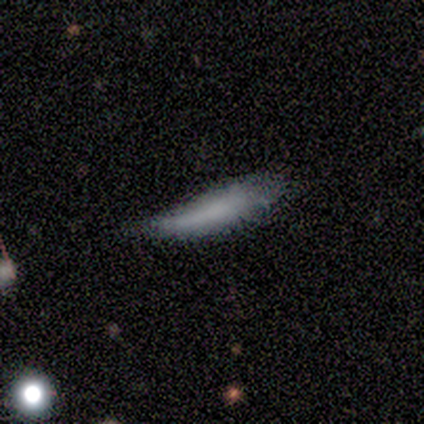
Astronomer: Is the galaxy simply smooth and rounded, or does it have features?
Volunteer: smooth — 100%.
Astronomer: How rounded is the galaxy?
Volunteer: cigar-shaped — 80%.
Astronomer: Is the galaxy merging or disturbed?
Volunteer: none — 60% (runner-up: minor disturbance, 40%).